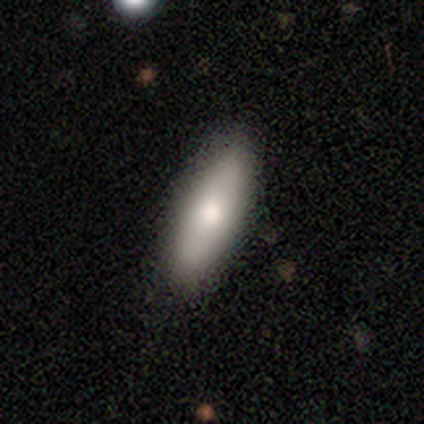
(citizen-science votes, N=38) smooth_or_featured: smooth (p=0.74) [alt: featured or disk p=0.21]
how_rounded: in between (p=0.75) [alt: cigar-shaped p=0.25]
merging: none (p=0.58) [alt: minor disturbance p=0.14]